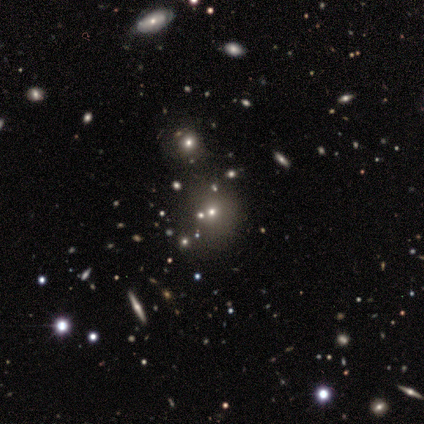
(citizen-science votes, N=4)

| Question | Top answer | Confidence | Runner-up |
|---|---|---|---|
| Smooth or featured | featured or disk | 50% | smooth (25%) |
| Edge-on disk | no | 100% | — |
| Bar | weak | 50% | tied: no (50%) |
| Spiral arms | yes | 50% | tied: no (50%) |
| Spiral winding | loose | 100% | — |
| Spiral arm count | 3 | 100% | — |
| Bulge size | moderate | 50% | tied: small (50%) |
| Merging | none | 67% | minor disturbance (33%) |